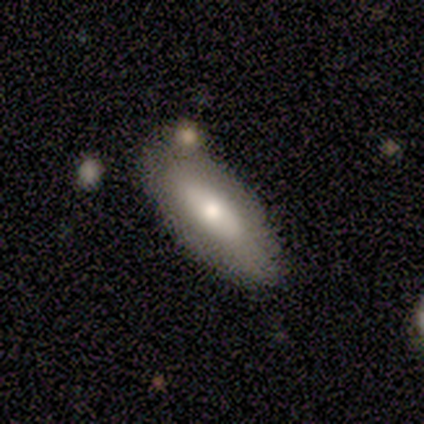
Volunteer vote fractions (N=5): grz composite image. It shows a smooth galaxy with no disk features (80%) that is cigar-shaped (75%). Merging: none (80%).